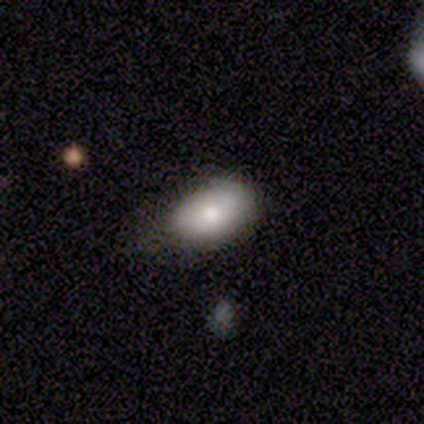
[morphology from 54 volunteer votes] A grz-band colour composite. It shows a smooth galaxy with no disk features (80%) that is in between round and cigar-shaped (98%). Merging: none (53%).